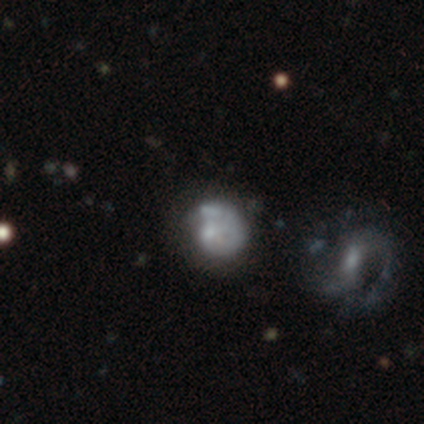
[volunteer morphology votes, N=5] type=smooth (60%); roundness=round (100%); merging=none (40%).